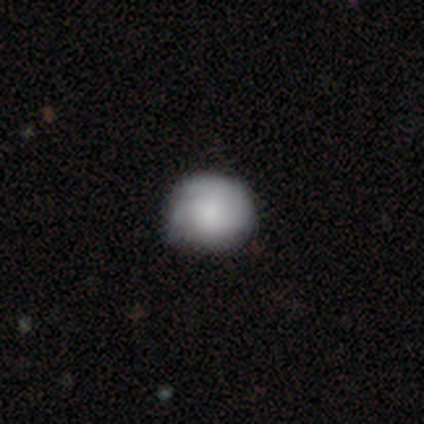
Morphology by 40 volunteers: type=smooth (62%); roundness=round (68%); merging=none (49%).